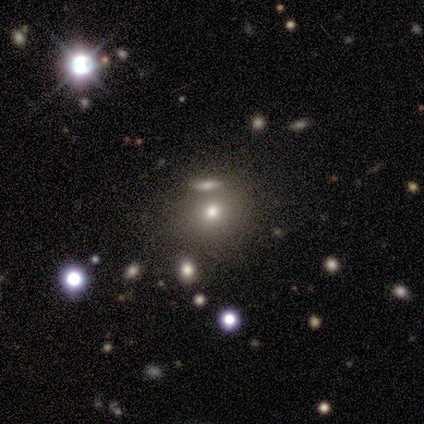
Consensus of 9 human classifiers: A featured or disk galaxy (56%) with no bar (100%), no spiral arms (100%) and a moderate central bulge (75%). Merging: none (71%).